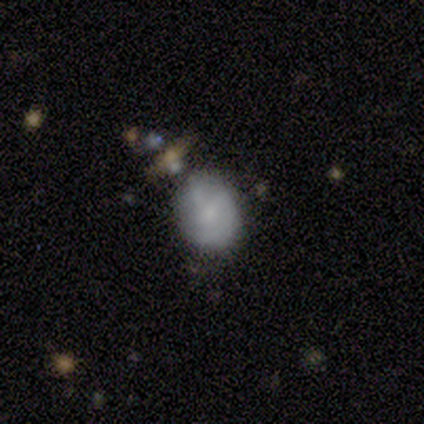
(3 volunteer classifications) Overall: featured or disk (67%; smooth 33%). Edge-on disk: no (100%). Bar: weak (50%, tied with no). Spiral arms: yes (50%, tied with no). Spiral arm count: can't tell (100%). Spiral winding: medium (100%). Bulge size: moderate (50%, tied with small). Merging: minor disturbance (67%; none 33%).